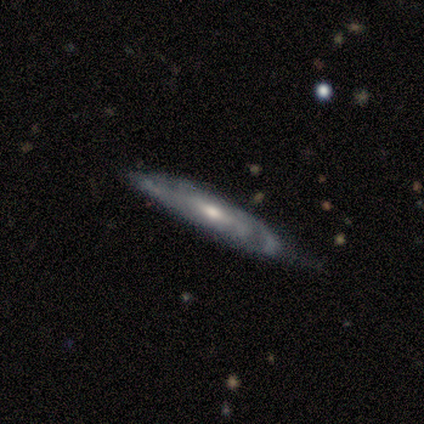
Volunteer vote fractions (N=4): Q: Smooth or featured?
A: featured or disk (100%)
Q: Edge-on disk?
A: yes (75%); runner-up: no (25%)
Q: Edge-on bulge?
A: none (100%)
Q: Merging?
A: none (100%)